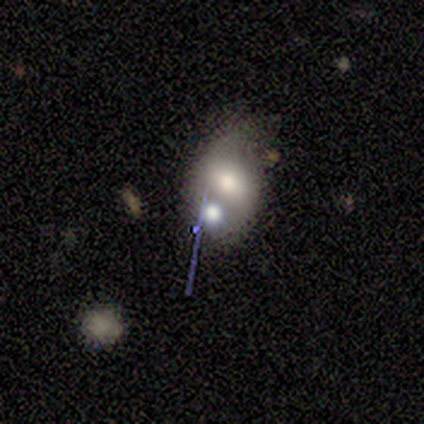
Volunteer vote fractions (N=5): This is marginally a smooth galaxy (40%, tied with featured or disk). How rounded: possibly round (50%, tied with in between). Merging: likely merger (75%).